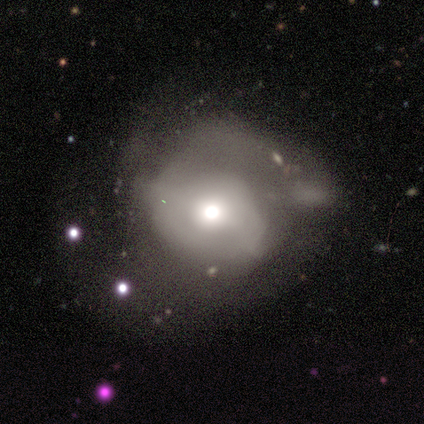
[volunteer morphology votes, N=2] This appears to be a featured or disk galaxy (100%) with no bar (100%), medium (100%) spiral arms (50%, tied with no) and a moderate central bulge (100%). Merging: minor disturbance (50%, tied with major disturbance).